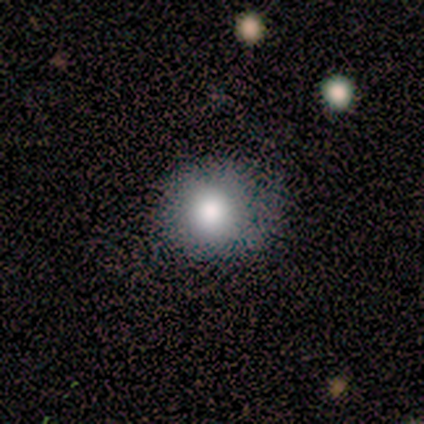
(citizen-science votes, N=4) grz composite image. It shows a smooth galaxy with no disk features (100%) that is round (100%). Merging: none (75%).